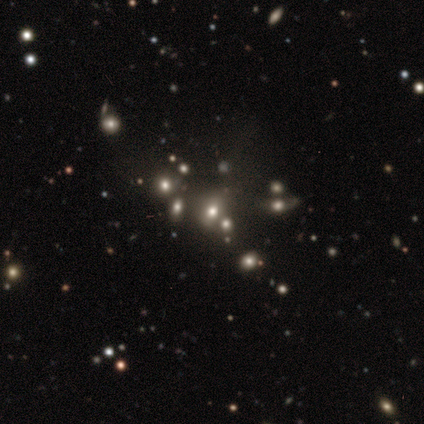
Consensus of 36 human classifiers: This is marginally a star or artifact rather than a galaxy (44%).